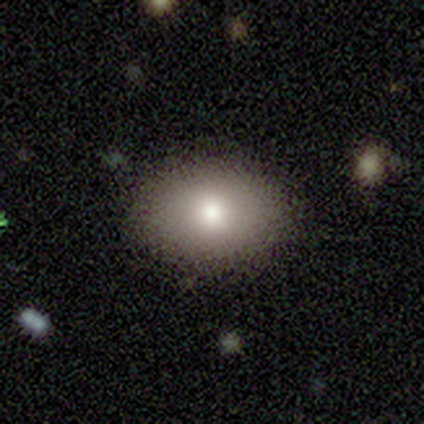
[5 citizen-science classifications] A smooth galaxy with no disk features (100%) that is in between round and cigar-shaped (100%). Merging: none (100%).